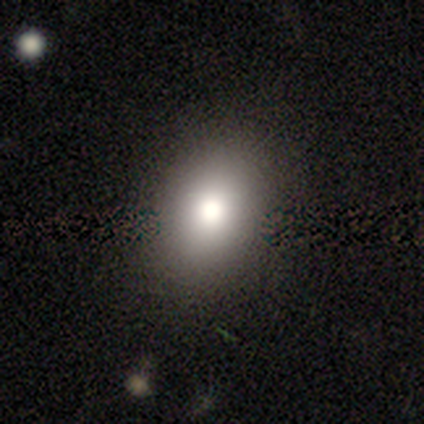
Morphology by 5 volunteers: Smooth or featured: smooth — 100%
How rounded: in between — 80% (round — 20%)
Merging: none — 100%